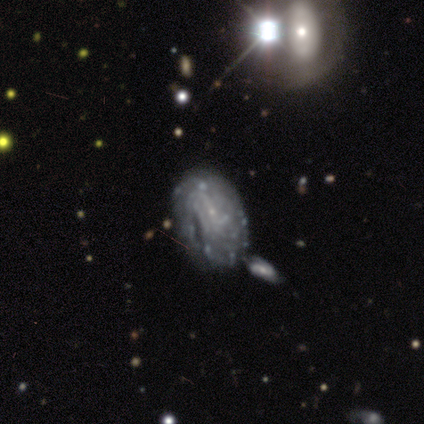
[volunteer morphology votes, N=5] Smooth or featured?
  - featured or disk: 100% *
  - smooth: 0%
  - star or artifact: 0%
Edge-on disk?
  - no: 100% *
  - yes: 0%
Bar?
  - no: 60% *
  - weak: 40%
  - strong: 0%
Spiral arms?
  - yes: 100% *
  - no: 0%
Spiral winding?
  - tight: 80% *
  - loose: 20%
  - medium: 0%
Spiral arm count?
  - 1: 40% * (tied)
  - can't tell: 40% * (tied)
  - 2: 20%
  - 3: 0%
  - 4: 0%
  - more than 4: 0%
Bulge size?
  - small: 60% *
  - none: 40%
  - dominant: 0%
  - large: 0%
  - moderate: 0%
Merging?
  - none: 40% * (tied)
  - merger: 40% * (tied)
  - major disturbance: 20%
  - minor disturbance: 0%